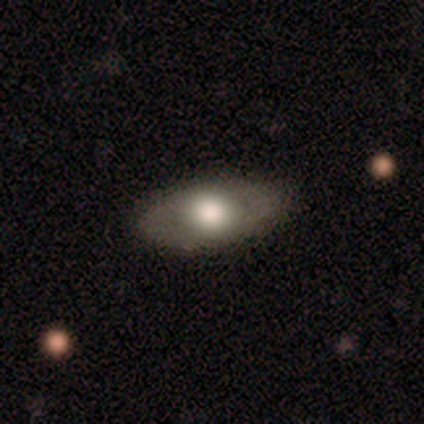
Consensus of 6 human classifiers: Morphology: type=featured or disk (67%); edge-on=no (100%); bar=no (100%); spiral arms=no (100%); bulge=large (50%, tied with moderate); merging=none (83%).